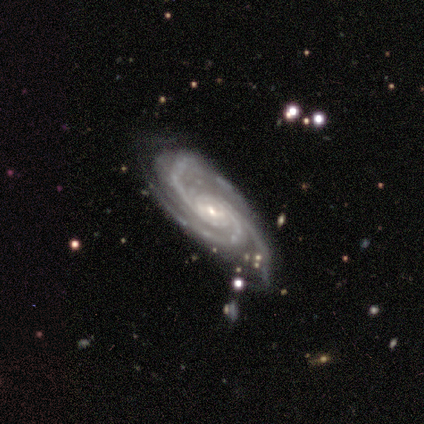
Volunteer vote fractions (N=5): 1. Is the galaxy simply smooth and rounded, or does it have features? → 100% featured or disk, 0% smooth, 0% star or artifact.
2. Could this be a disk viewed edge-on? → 100% no, 0% yes.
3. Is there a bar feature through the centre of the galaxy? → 40% weak (tied), 40% no (tied), 20% strong.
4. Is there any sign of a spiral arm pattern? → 100% yes, 0% no.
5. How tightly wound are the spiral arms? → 80% tight, 20% medium, 0% loose.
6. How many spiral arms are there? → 100% 3, 0% 1, 0% 2, 0% 4, 0% more than 4, 0% can't tell.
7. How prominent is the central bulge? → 100% small, 0% dominant, 0% large, 0% moderate, 0% none.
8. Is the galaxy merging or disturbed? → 80% none, 20% minor disturbance, 0% major disturbance, 0% merger.